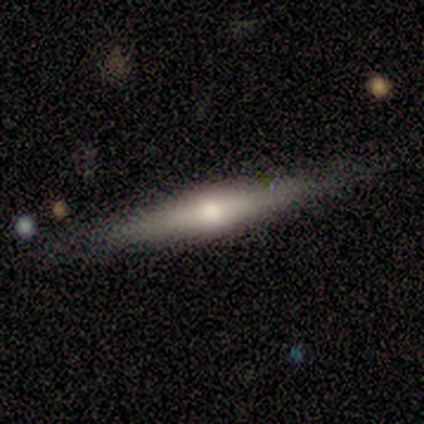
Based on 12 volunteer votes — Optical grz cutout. It shows a featured or disk galaxy (58%) viewed edge-on (86%) with a rounded central bulge (100%). Merging: none (75%).